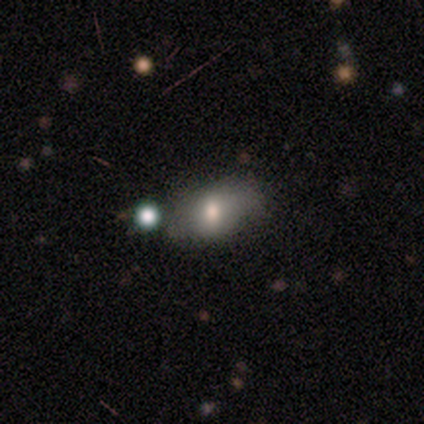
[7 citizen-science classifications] Smooth or featured?
  - smooth: 71% *
  - featured or disk: 29%
  - star or artifact: 0%
How rounded?
  - in between: 80% *
  - round: 20%
  - cigar-shaped: 0%
Merging?
  - none: 43% * (tied)
  - minor disturbance: 43% * (tied)
  - merger: 14%
  - major disturbance: 0%